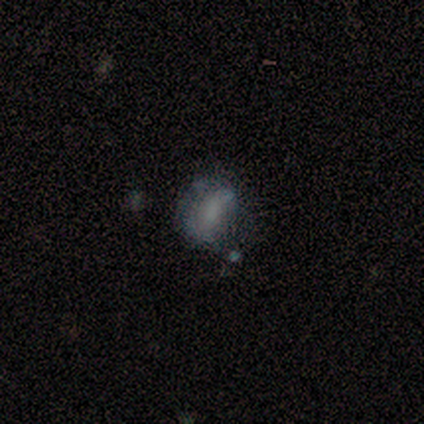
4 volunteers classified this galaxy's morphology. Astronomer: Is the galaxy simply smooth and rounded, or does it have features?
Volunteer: smooth — 100%.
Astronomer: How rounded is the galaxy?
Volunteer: round — 75%.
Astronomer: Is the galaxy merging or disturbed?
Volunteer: none — 100%.